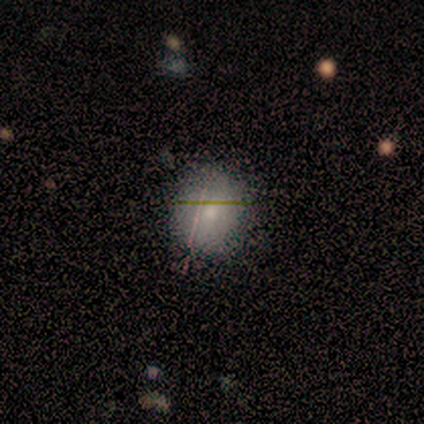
A smooth galaxy with no disk features (100%) that is round (83%).

Vote fractions:
- Smooth or featured? smooth: 100% / featured or disk: 0% / star or artifact: 0%
- How rounded? round: 83% / in between: 17% / cigar-shaped: 0%
- Merging? none: 100% / minor disturbance: 0% / major disturbance: 0% / merger: 0%